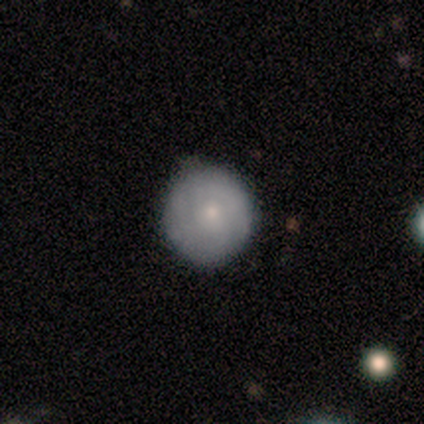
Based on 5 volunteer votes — smooth_or_featured: smooth (p=0.60) [alt: featured or disk p=0.40]
how_rounded: round (p=1.00)
merging: minor disturbance (p=0.60) [alt: none p=0.40]